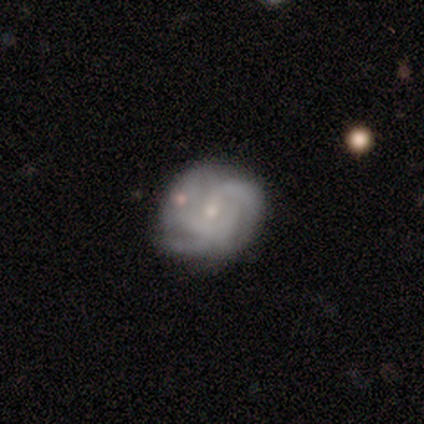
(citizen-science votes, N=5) Smooth or featured?
  - featured or disk: 80% *
  - smooth: 20%
  - star or artifact: 0%
Edge-on disk?
  - no: 100% *
  - yes: 0%
Bar?
  - no: 75% *
  - weak: 25%
  - strong: 0%
Spiral arms?
  - yes: 75% *
  - no: 25%
Spiral winding?
  - loose: 67% *
  - tight: 33%
  - medium: 0%
Spiral arm count?
  - can't tell: 67% *
  - 2: 33%
  - 1: 0%
  - 3: 0%
  - 4: 0%
  - more than 4: 0%
Bulge size?
  - small: 50% *
  - dominant: 25%
  - moderate: 25%
  - large: 0%
  - none: 0%
Merging?
  - none: 80% *
  - merger: 20%
  - minor disturbance: 0%
  - major disturbance: 0%